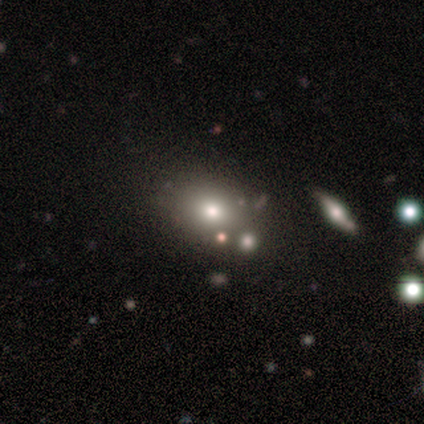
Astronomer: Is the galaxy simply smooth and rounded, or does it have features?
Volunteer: smooth — 65%.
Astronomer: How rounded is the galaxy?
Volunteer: round — 53% (runner-up: in between, 47%).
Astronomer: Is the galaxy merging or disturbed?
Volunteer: none — 75%.